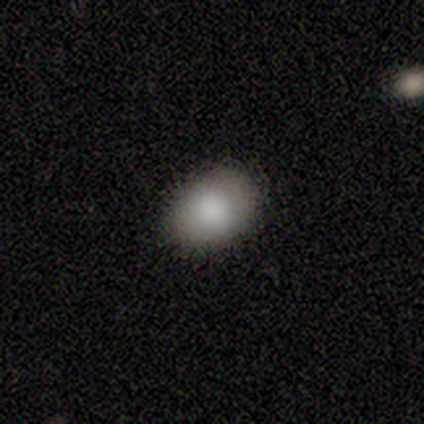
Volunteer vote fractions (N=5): smooth_or_featured: smooth (p=1.00)
how_rounded: in between (p=1.00)
merging: none (p=1.00)